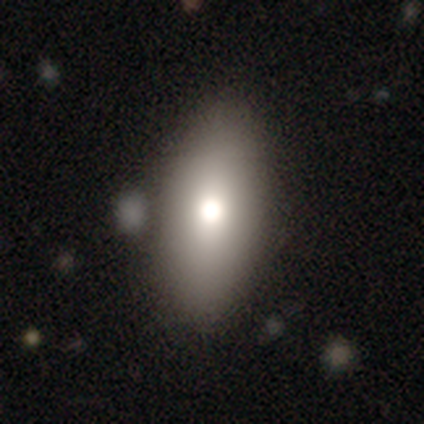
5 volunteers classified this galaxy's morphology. smooth 60%, featured or disk 40%, star or artifact 0%. Down the decision tree: how rounded — in between (67%); merging — none (60%).